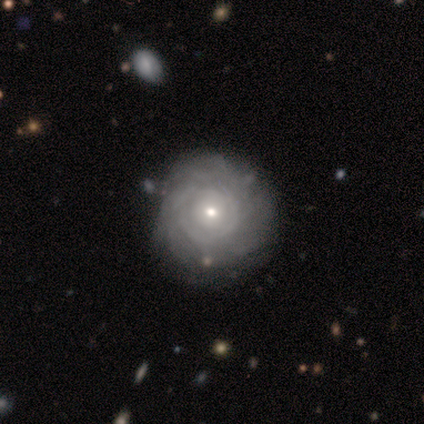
Q: Smooth or featured?
A: featured or disk (80%); runner-up: star or artifact (20%)
Q: Edge-on disk?
A: no (100%)
Q: Bar?
A: no (75%); runner-up: weak (25%)
Q: Spiral arms?
A: yes (100%)
Q: Spiral winding?
A: tight (75%); runner-up: medium (25%)
Q: Spiral arm count?
A: can't tell (75%); runner-up: more than 4 (25%)
Q: Bulge size?
A: dominant (50%); runner-up: moderate (25%)
Q: Merging?
A: none (75%); runner-up: merger (25%)